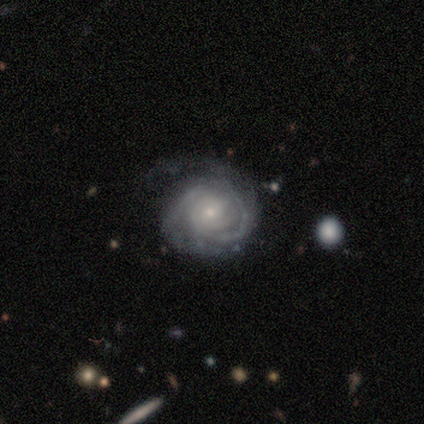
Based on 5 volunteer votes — Smooth or featured?
  - featured or disk: 100% *
  - smooth: 0%
  - star or artifact: 0%
Edge-on disk?
  - no: 100% *
  - yes: 0%
Bar?
  - no: 60% *
  - weak: 40%
  - strong: 0%
Spiral arms?
  - yes: 100% *
  - no: 0%
Spiral winding?
  - tight: 100% *
  - medium: 0%
  - loose: 0%
Spiral arm count?
  - can't tell: 100% *
  - 1: 0%
  - 2: 0%
  - 3: 0%
  - 4: 0%
  - more than 4: 0%
Bulge size?
  - small: 80% *
  - moderate: 20%
  - dominant: 0%
  - large: 0%
  - none: 0%
Merging?
  - none: 60% *
  - major disturbance: 40%
  - minor disturbance: 0%
  - merger: 0%